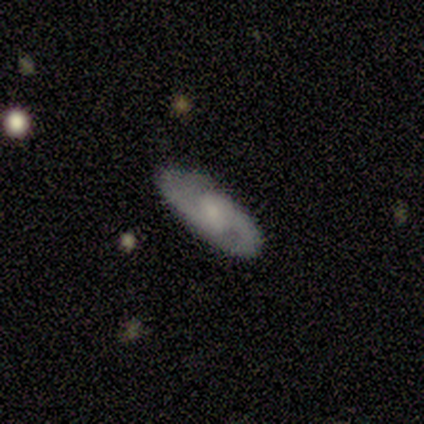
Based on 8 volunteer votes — This is clearly a featured or disk galaxy (88%). It is clearly not viewed edge-on (100%). Bar: possibly weak (57%). Spiral arm pattern: clearly yes (100%). Spiral arm count: clearly 2 (100%). Spiral winding: marginally loose (43%). Central bulge: marginally small (43%). Merging: clearly none (86%).